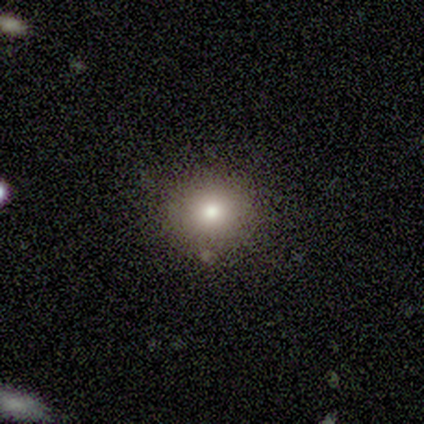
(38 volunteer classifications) Morphology: type=smooth (61%); roundness=round (96%); merging=none (87%).